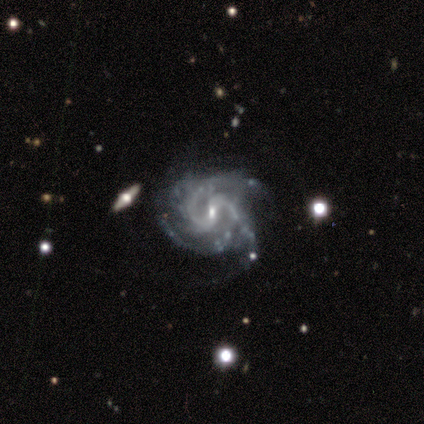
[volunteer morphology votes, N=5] Smooth or featured?
  - featured or disk: 100% *
  - smooth: 0%
  - star or artifact: 0%
Edge-on disk?
  - no: 100% *
  - yes: 0%
Bar?
  - weak: 80% *
  - no: 20%
  - strong: 0%
Spiral arms?
  - yes: 100% *
  - no: 0%
Spiral winding?
  - tight: 40% * (tied)
  - medium: 40% * (tied)
  - loose: 20%
Spiral arm count?
  - 3: 60% *
  - 2: 20%
  - 4: 20%
  - 1: 0%
  - more than 4: 0%
  - can't tell: 0%
Bulge size?
  - small: 100% *
  - dominant: 0%
  - large: 0%
  - moderate: 0%
  - none: 0%
Merging?
  - minor disturbance: 80% *
  - none: 20%
  - major disturbance: 0%
  - merger: 0%